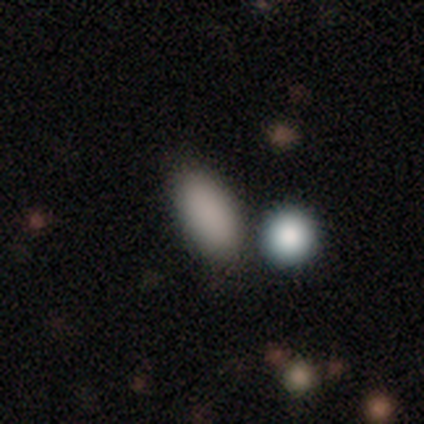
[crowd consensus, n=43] Q: Smooth or featured?
A: smooth (88%); runner-up: star or artifact (9%)
Q: How rounded?
A: in between (84%); runner-up: cigar-shaped (11%)
Q: Merging?
A: none (69%); runner-up: merger (15%)